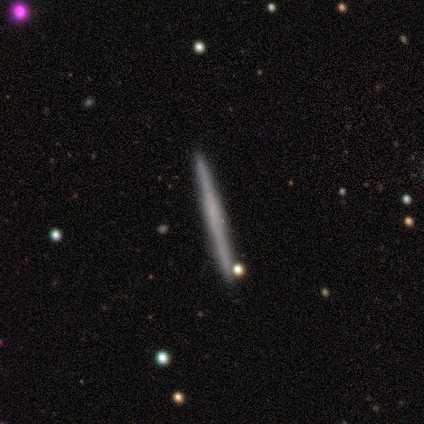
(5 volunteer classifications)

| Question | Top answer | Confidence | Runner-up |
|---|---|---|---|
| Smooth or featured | smooth | 80% | featured or disk (20%) |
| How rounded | cigar-shaped | 100% | — |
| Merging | none | 80% | merger (20%) |